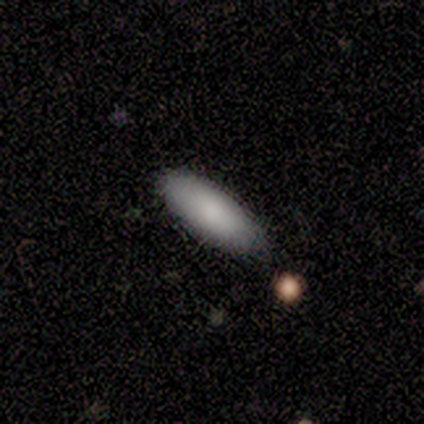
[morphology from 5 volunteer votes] smooth-or-featured: smooth: 80% | featured or disk: 20% | star or artifact: 0%
  how-rounded: in between: 75% | cigar-shaped: 25% | round: 0%
  merging: none: 100% | minor disturbance: 0% | major disturbance: 0% | merger: 0%